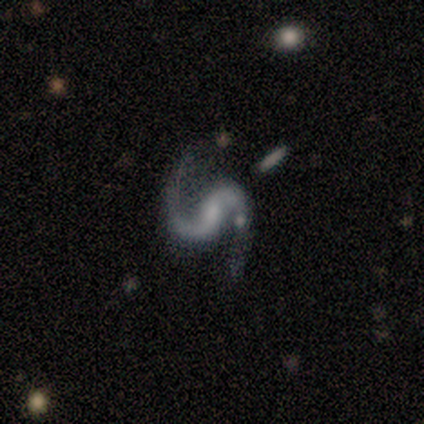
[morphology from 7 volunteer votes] Overall: featured or disk (100%). Edge-on disk: no (100%). Bar: no (71%). Spiral arms: yes (100%). Spiral arm count: 2 (86%). Spiral winding: medium (57%; loose 43%). Bulge size: small (57%; none 29%). Merging: none (43%, tied with minor disturbance).